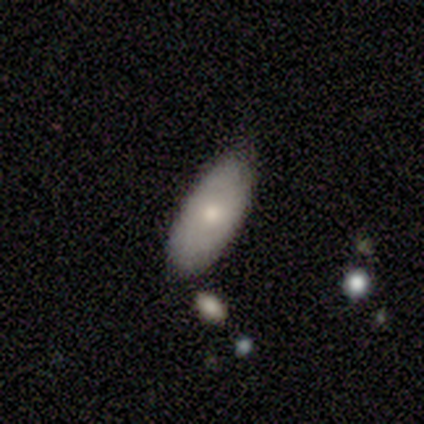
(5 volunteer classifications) smooth-or-featured: featured or disk: 80% | smooth: 20% | star or artifact: 0%
  disk-edge-on: yes: 50% (tied) | no: 50% (tied)
    edge-on-bulge: rounded: 100% | boxy: 0% | none: 0%
  merging: none: 60% | minor disturbance: 40% | major disturbance: 0% | merger: 0%